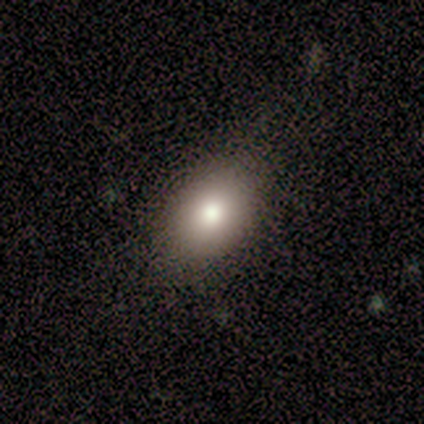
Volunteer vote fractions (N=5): Overall: smooth (100%). How rounded: in between (100%). Merging: none (80%).